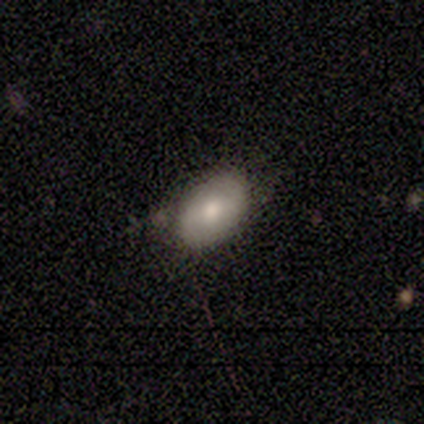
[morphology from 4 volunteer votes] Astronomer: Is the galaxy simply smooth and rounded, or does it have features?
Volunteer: smooth — 75%.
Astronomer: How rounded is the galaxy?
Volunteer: in between — 100%.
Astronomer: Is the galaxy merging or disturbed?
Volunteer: none — 50%, tied with minor disturbance at 50%.